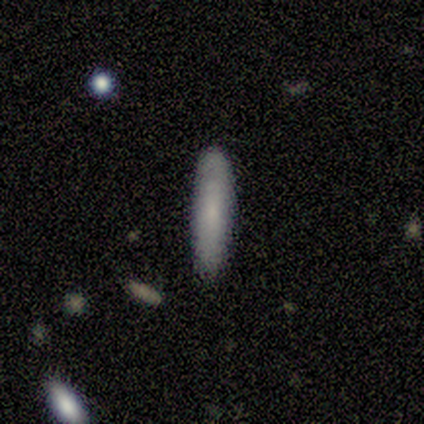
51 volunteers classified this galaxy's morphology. Volunteers were most divided on "how rounded": cigar-shaped: 67%, in between: 33%, round: 0%. More confident: smooth or featured — smooth (88%); merging — none (84%).